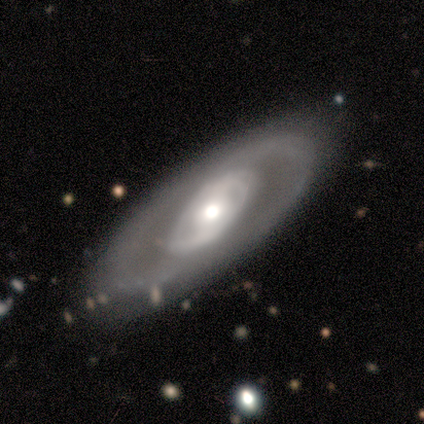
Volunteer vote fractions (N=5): A featured or disk galaxy (80%) with no bar (67%), no spiral arms (67%) and a moderate central bulge (100%).

Vote fractions:
- Smooth or featured? featured or disk: 80% / smooth: 20% / star or artifact: 0%
- Edge-on disk? no: 75% / yes: 25%
- Bar? no: 67% / weak: 33% / strong: 0%
- Spiral arms? no: 67% / yes: 33%
- Bulge size? moderate: 100% / dominant: 0% / large: 0% / small: 0% / none: 0%
- Merging? none: 100% / minor disturbance: 0% / major disturbance: 0% / merger: 0%